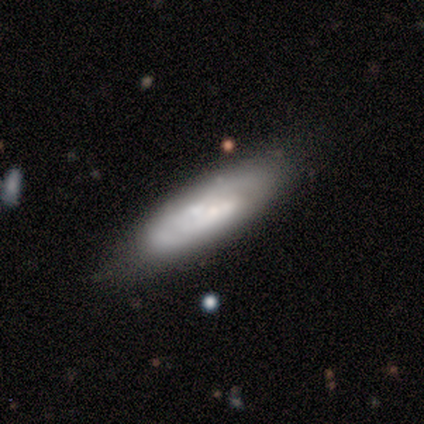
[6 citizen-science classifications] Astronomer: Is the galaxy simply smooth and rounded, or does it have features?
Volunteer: featured or disk — 50% (runner-up: smooth, 33%).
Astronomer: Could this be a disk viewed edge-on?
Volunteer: no — 67%.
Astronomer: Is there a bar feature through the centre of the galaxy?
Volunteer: weak — 50%, tied with no at 50%.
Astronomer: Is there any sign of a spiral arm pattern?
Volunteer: yes — 50%, tied with no at 50%.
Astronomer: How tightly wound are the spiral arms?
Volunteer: tight — 100%.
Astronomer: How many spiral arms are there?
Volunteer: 2 — 100%.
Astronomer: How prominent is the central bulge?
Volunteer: large — 50%, tied with small at 50%.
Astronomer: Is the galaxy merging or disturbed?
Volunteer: none — 60%.